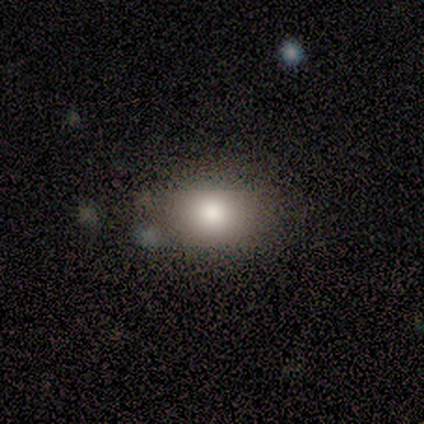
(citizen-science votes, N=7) Morphology: type=smooth (100%); roundness=in between (57%); merging=none (71%).